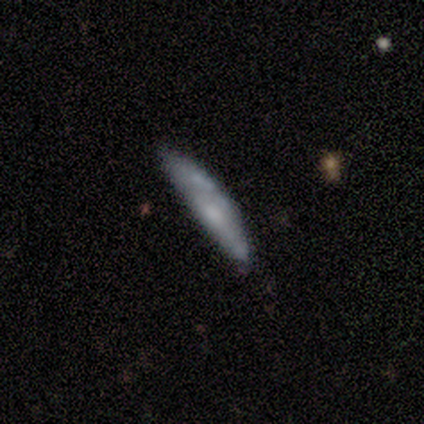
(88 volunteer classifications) A smooth galaxy with no disk features (56%) that is cigar-shaped (90%).

Vote fractions:
- Smooth or featured? smooth: 56% / featured or disk: 43% / star or artifact: 1%
- How rounded? cigar-shaped: 90% / in between: 10% / round: 0%
- Merging? none: 67% / minor disturbance: 29% / major disturbance: 2% / merger: 2%